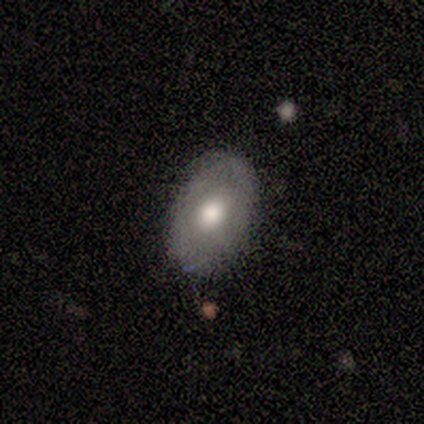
A featured or disk galaxy (60%) with no bar (100%), no spiral arms (100%) and a moderate central bulge (100%). Merging: none (100%).